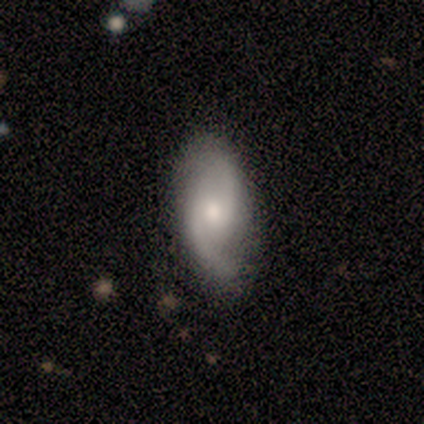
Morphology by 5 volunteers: featured or disk 100%, smooth 0%, star or artifact 0%. Down the decision tree: edge-on disk — no (100%); bar — weak (60%); spiral arms — yes (100%); spiral arm count — 2 (100%); spiral winding — loose (60%); bulge size — moderate (60%); merging — none (100%).